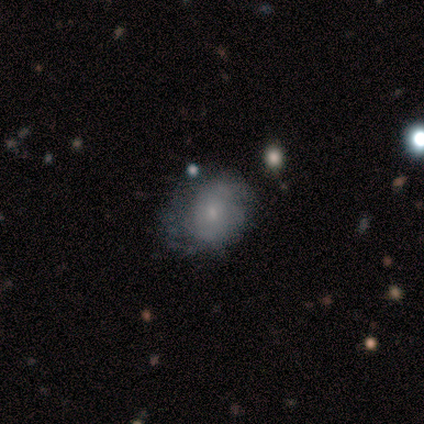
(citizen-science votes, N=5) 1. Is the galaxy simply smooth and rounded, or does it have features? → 60% featured or disk, 40% smooth, 0% star or artifact.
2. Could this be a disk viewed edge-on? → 100% no, 0% yes.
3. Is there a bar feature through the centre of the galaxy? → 100% no, 0% strong, 0% weak.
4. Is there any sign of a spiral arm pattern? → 100% yes, 0% no.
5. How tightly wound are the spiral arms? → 67% medium, 33% tight, 0% loose.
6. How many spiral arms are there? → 100% can't tell, 0% 1, 0% 2, 0% 3, 0% 4, 0% more than 4.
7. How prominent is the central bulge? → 67% small, 33% moderate, 0% dominant, 0% large, 0% none.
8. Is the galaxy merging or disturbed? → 40% none (tied), 40% minor disturbance (tied), 20% major disturbance, 0% merger.